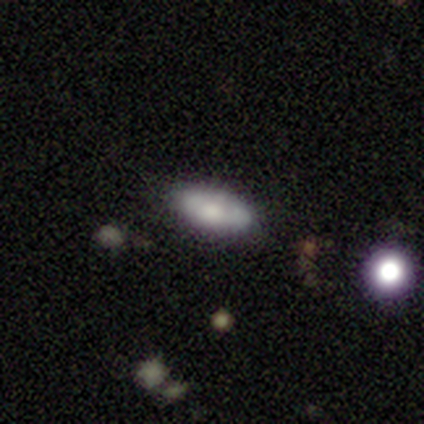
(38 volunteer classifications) A smooth galaxy with no disk features (63%) that is in between round and cigar-shaped (88%). Merging: none (81%).